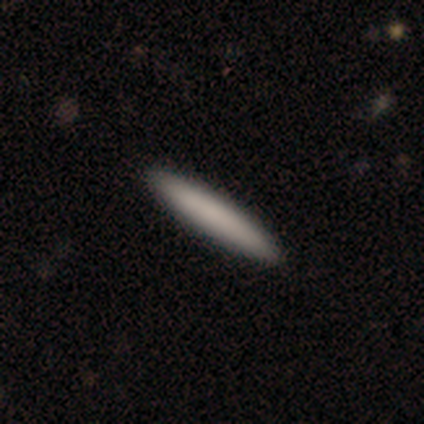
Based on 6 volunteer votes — smooth 50%, star or artifact 33%, featured or disk 17%. Down the decision tree: how rounded — cigar-shaped (100%); merging — none (100%).